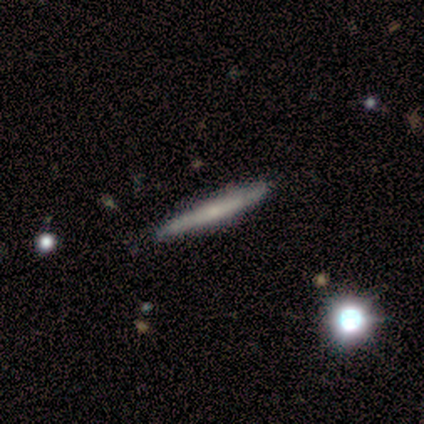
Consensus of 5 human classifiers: Overall: featured or disk (80%). Edge-on disk: yes (100%). Edge-on bulge: rounded (75%). Merging: none (100%).